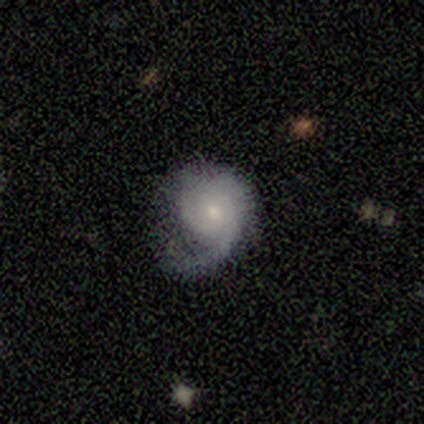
This appears to be a smooth galaxy with no disk features (67%) that is round (100%). Merging: none (67%).